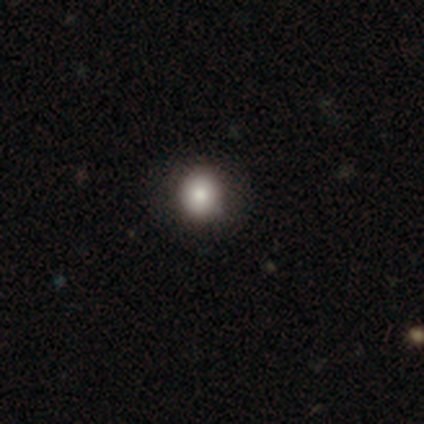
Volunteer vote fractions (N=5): Smooth or featured?
  - smooth: 80% *
  - star or artifact: 20%
  - featured or disk: 0%
How rounded?
  - round: 100% *
  - in between: 0%
  - cigar-shaped: 0%
Merging?
  - none: 100% *
  - minor disturbance: 0%
  - major disturbance: 0%
  - merger: 0%